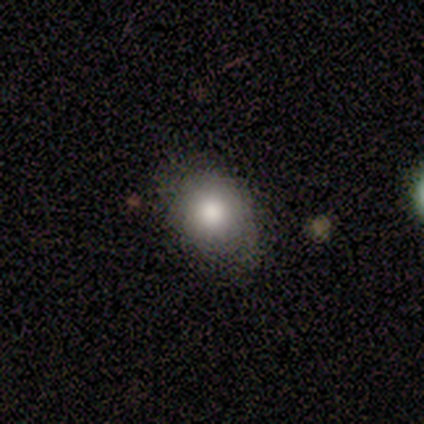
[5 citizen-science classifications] Smooth or featured: smooth — 80% (featured or disk — 20%)
How rounded: round — 75% (in between — 25%)
Merging: none — 60% (minor disturbance — 40%)